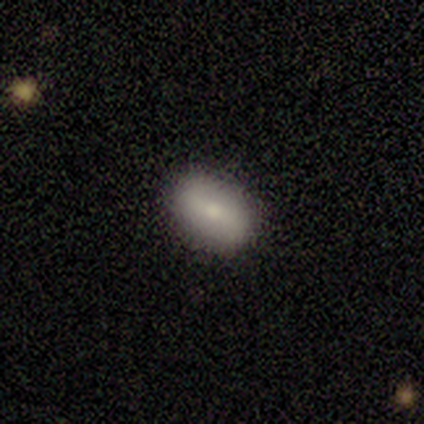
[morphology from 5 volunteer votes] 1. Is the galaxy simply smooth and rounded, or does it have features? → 80% smooth, 20% featured or disk, 0% star or artifact.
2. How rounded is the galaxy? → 100% in between, 0% round, 0% cigar-shaped.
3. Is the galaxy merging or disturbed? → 100% none, 0% minor disturbance, 0% major disturbance, 0% merger.